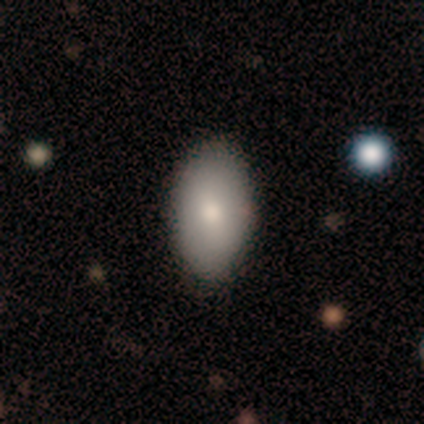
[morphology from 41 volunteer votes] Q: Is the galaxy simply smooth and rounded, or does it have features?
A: smooth — 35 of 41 (85%).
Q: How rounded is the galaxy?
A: in between — 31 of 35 (89%).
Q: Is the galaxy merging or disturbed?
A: none — 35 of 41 (85%).